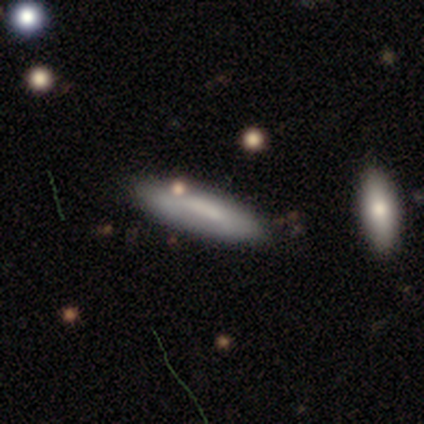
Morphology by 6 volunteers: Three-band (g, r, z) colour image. It shows a smooth galaxy with no disk features (67%) that is cigar-shaped (100%). Merging: none (83%).